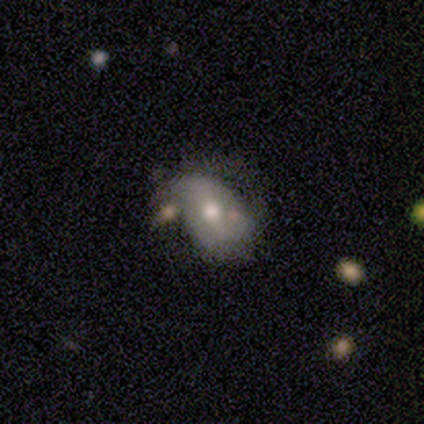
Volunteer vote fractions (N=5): Smooth or featured? 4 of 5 (80%) said smooth. How rounded? 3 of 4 (75%) said in between. Merging? 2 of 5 (40%, tied with major disturbance) said none.